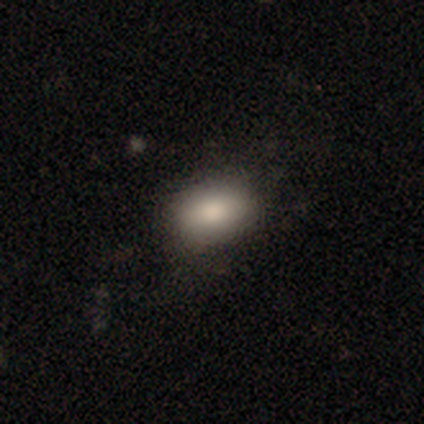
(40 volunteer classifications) Volunteers were most divided on "merging": none: 74%, minor disturbance: 21%, major disturbance: 3%, merger: 3%. More confident: how rounded — in between (89%); smooth or featured — smooth (88%).